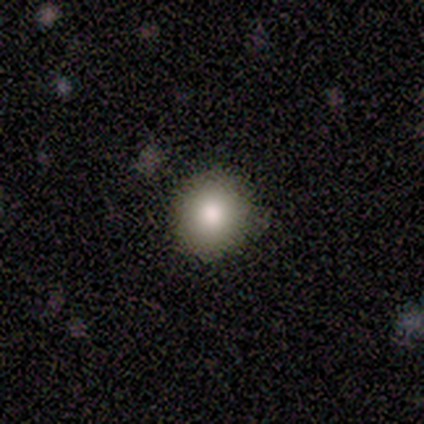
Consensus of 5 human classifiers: Smooth or featured? 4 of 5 (80%) said smooth. How rounded? 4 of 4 (100%) said round. Merging? 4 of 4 (100%) said none.